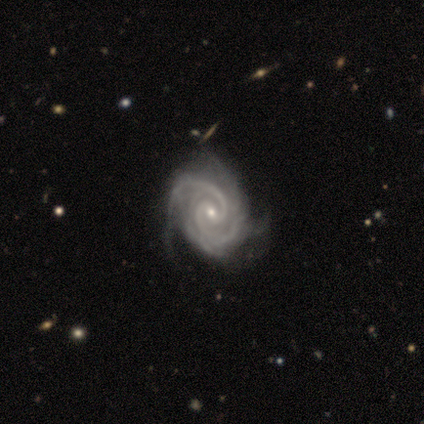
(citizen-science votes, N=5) featured or disk 100%, smooth 0%, star or artifact 0%. Down the decision tree: edge-on disk — no (100%); bar — weak (40%, tied with no); spiral arms — yes (100%); spiral arm count — 2 (80%); spiral winding — medium (60%); bulge size — small (60%); merging — none (40%, tied with minor disturbance).